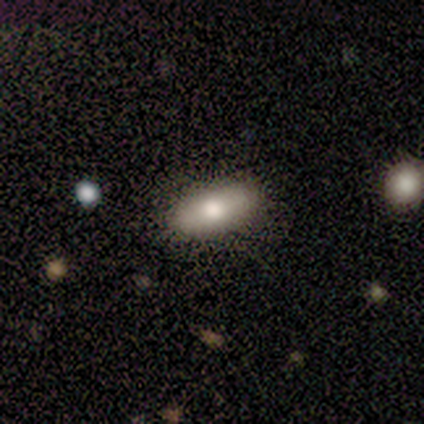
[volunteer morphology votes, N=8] This appears to be a smooth galaxy with no disk features (88%) that is in between round and cigar-shaped (100%). Merging: none (100%).